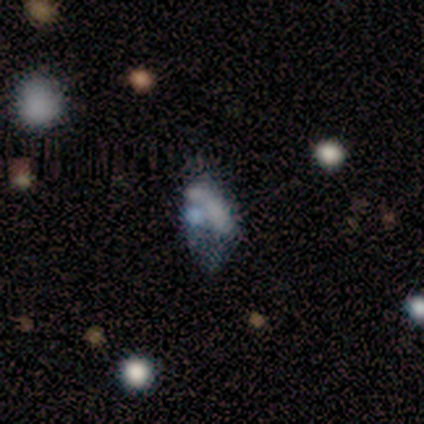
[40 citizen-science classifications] featured or disk 50%, smooth 30%, star or artifact 20%. Down the decision tree: edge-on disk — no (100%); bar — no (100%); spiral arms — no (95%); bulge size — none (70%); merging — merger (31%).